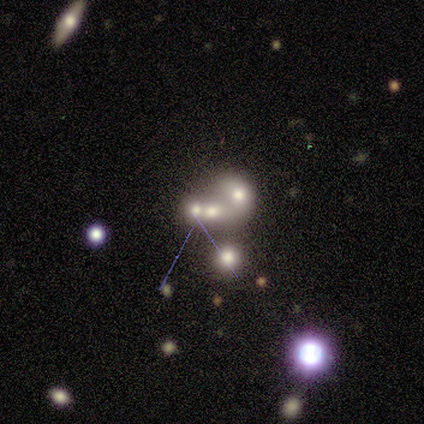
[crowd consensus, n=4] Morphology: type=smooth (50%); roundness=round (50%, tied with in between); merging=merger (100%).